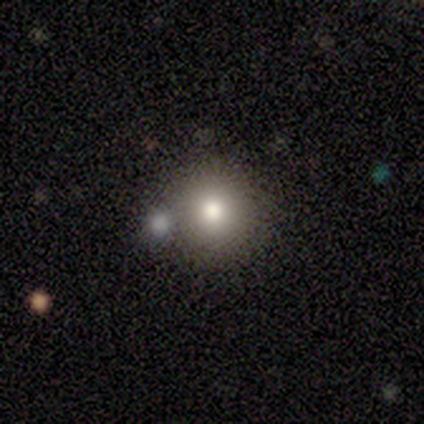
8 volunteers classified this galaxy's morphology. smooth-or-featured: smooth: 62% | featured or disk: 25% | star or artifact: 12%
  how-rounded: round: 100% | in between: 0% | cigar-shaped: 0%
  merging: none: 100% | minor disturbance: 0% | major disturbance: 0% | merger: 0%